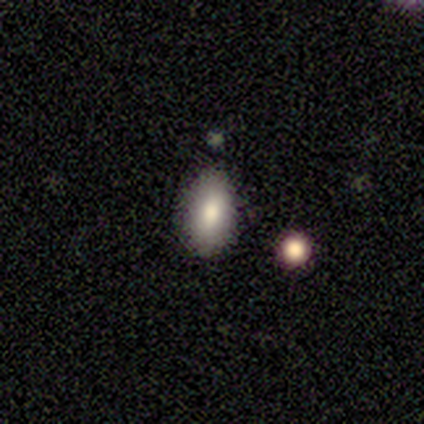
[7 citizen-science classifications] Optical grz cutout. It shows a smooth galaxy with no disk features (100%) that is in between round and cigar-shaped (100%). Merging: none (86%).